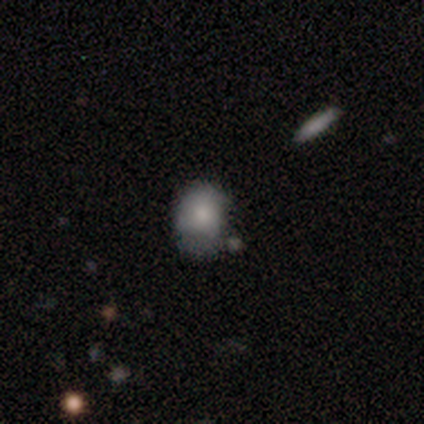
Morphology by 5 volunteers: Smooth or featured? smooth (80%)
How rounded? round (75%)
Merging? none (50%)